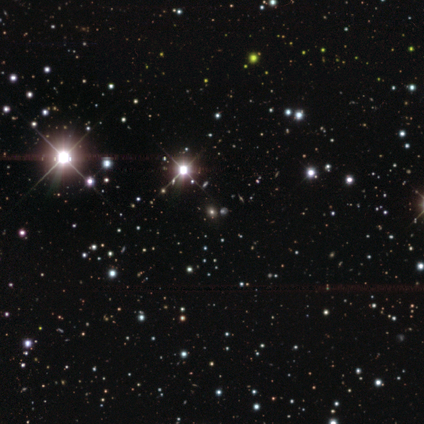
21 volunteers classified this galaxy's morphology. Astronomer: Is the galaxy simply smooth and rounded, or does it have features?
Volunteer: star or artifact — 86%.